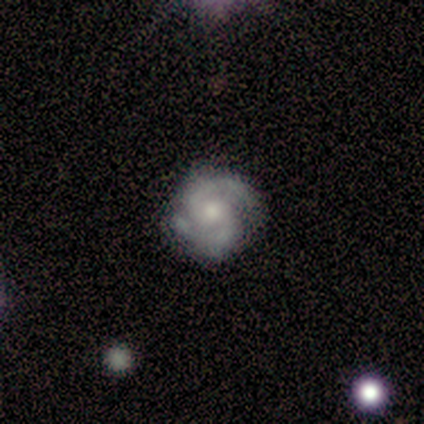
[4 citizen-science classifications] featured or disk 100%, smooth 0%, star or artifact 0%. Down the decision tree: edge-on disk — no (100%); bar — no (75%); spiral arms — yes (100%); spiral arm count — 2 (100%); spiral winding — medium (75%); bulge size — small (75%); merging — none (100%).